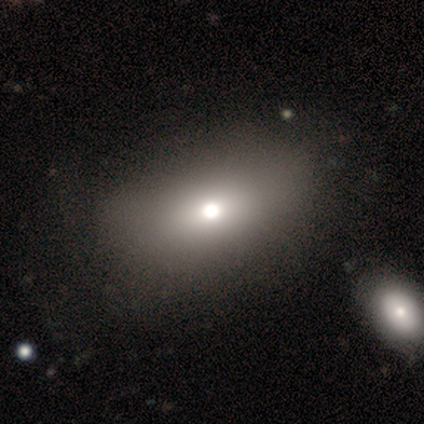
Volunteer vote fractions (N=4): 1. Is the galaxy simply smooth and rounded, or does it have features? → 50% smooth (tied), 50% featured or disk (tied), 0% star or artifact.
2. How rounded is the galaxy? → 100% in between, 0% round, 0% cigar-shaped.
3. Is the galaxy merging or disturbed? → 50% none, 25% minor disturbance, 25% major disturbance, 0% merger.